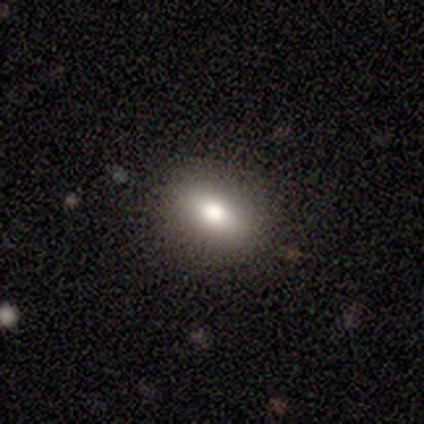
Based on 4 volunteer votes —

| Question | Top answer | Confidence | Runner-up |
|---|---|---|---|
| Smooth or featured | smooth | 100% | — |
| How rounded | in between | 75% | round (25%) |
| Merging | none | 75% | minor disturbance (25%) |